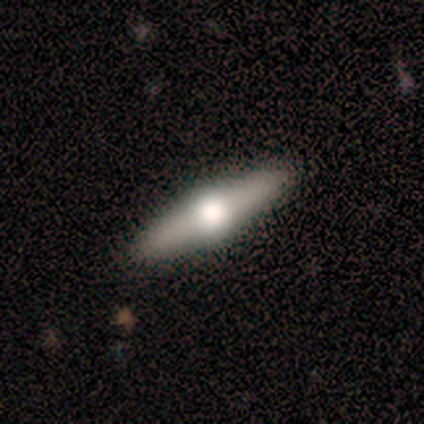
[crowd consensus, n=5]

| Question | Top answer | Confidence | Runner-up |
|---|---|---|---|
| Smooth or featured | smooth | 60% | featured or disk (40%) |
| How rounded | cigar-shaped | 100% | — |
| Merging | none | 100% | — |